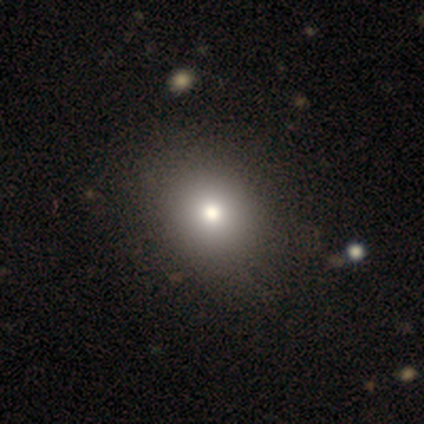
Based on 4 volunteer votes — Smooth or featured? smooth (50%, tied with star or artifact)
How rounded? round (50%, tied with in between)
Merging? none (100%)